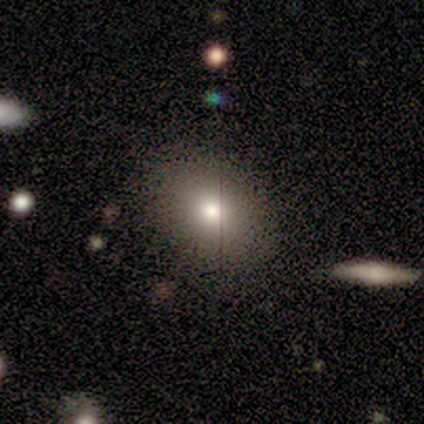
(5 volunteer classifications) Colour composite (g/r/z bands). It shows a smooth galaxy with no disk features (60%) that is in between round and cigar-shaped (67%). Merging: none (100%).